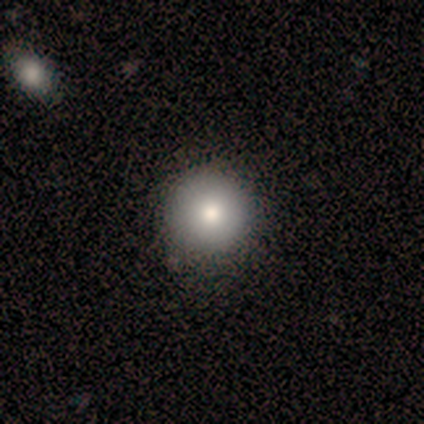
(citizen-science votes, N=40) This appears to be a smooth galaxy with no disk features (90%) that is round (97%). Merging: none (62%).